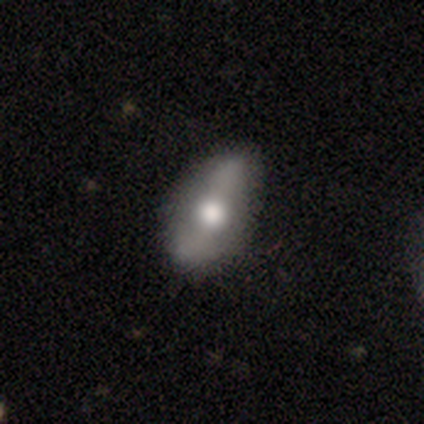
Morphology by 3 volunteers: This appears to be a smooth galaxy with no disk features (67%) that is in between round and cigar-shaped (100%). Merging: none (67%).